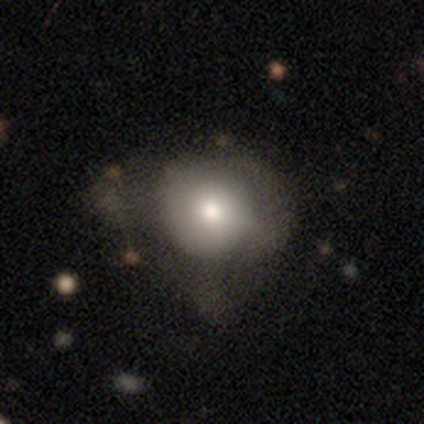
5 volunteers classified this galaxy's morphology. Volunteers were most divided on "edge-on bulge" (2-way tie): boxy: 50%, rounded: 50%, none: 0%. More confident: merging — minor disturbance (75%); edge-on disk — yes (67%); smooth or featured — featured or disk (60%).